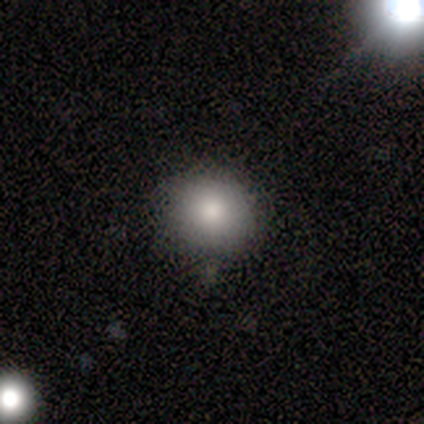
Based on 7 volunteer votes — Morphology: type=smooth (57%); roundness=round (50%, tied with in between); merging=none (75%).